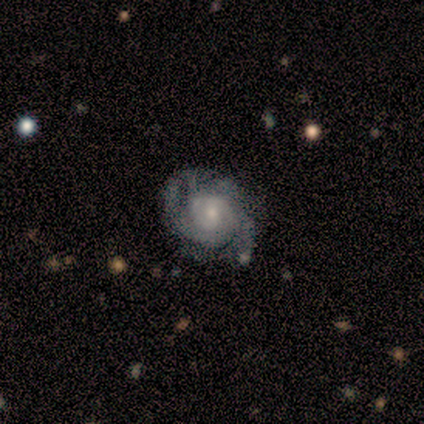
Smooth or featured?
  - featured or disk: 100% *
  - smooth: 0%
  - star or artifact: 0%
Edge-on disk?
  - no: 100% *
  - yes: 0%
Bar?
  - no: 86% *
  - weak: 14%
  - strong: 0%
Spiral arms?
  - yes: 100% *
  - no: 0%
Spiral winding?
  - medium: 57% *
  - tight: 29%
  - loose: 14%
Spiral arm count?
  - 2: 43% *
  - 4: 29%
  - can't tell: 29%
  - 1: 0%
  - 3: 0%
  - more than 4: 0%
Bulge size?
  - small: 86% *
  - moderate: 14%
  - dominant: 0%
  - large: 0%
  - none: 0%
Merging?
  - none: 43% * (tied)
  - minor disturbance: 43% * (tied)
  - major disturbance: 14%
  - merger: 0%